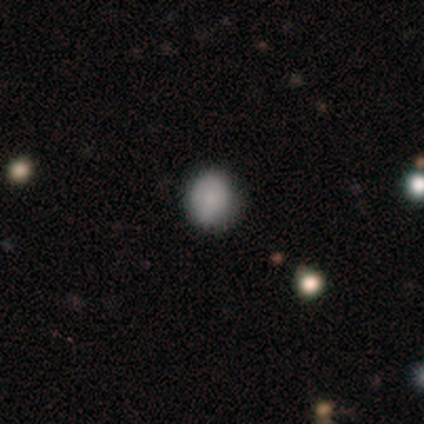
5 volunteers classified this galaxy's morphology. Smooth or featured: smooth — 60% (featured or disk — 20%)
How rounded: in between — 67% (round — 33%)
Merging: none — 75% (minor disturbance — 25%)